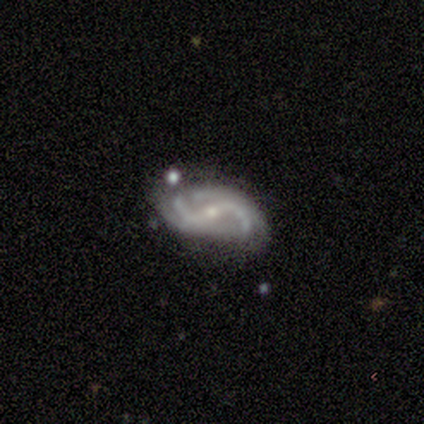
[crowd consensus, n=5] A featured or disk galaxy (100%) with a strong bar (80%), 2 (100%) loose (80%) spiral arms (100%) and a small central bulge (60%).

Vote fractions:
- Smooth or featured? featured or disk: 100% / smooth: 0% / star or artifact: 0%
- Edge-on disk? no: 100% / yes: 0%
- Bar? strong: 80% / no: 20% / weak: 0%
- Spiral arms? yes: 100% / no: 0%
- Spiral winding? loose: 80% / medium: 20% / tight: 0%
- Spiral arm count? 2: 100% / 1: 0% / 3: 0% / 4: 0% / more than 4: 0% / can't tell: 0%
- Bulge size? small: 60% / moderate: 40% / dominant: 0% / large: 0% / none: 0%
- Merging? none: 80% / minor disturbance: 20% / major disturbance: 0% / merger: 0%